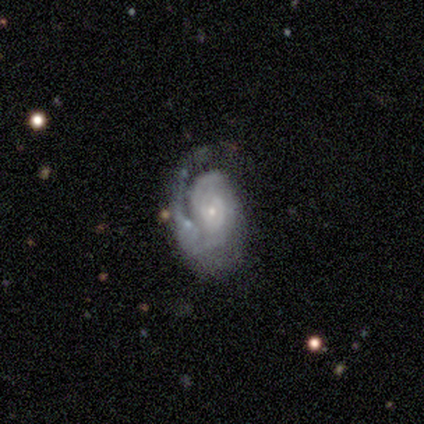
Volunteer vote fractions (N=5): smooth_or_featured: featured or disk (p=1.00)
disk_edge_on: no (p=1.00)
bar: no (p=0.60) [alt: weak p=0.40]
has_spiral_arms: yes (p=1.00)
spiral_winding: tight (p=0.60) [alt: medium p=0.20]
spiral_arm_count: can't tell (p=0.60) [alt: 1 p=0.20]
bulge_size: small (p=0.80) [alt: moderate p=0.20]
merging: minor disturbance (p=0.40) [alt: none p=0.20]